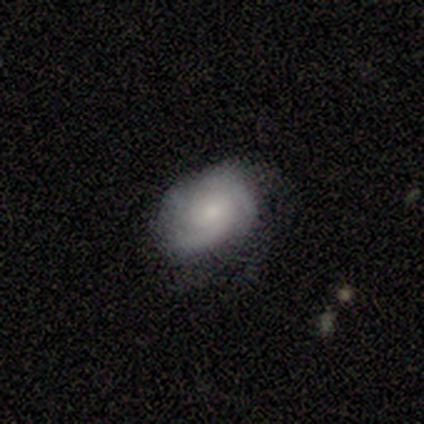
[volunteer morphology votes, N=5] Overall: featured or disk (60%; smooth 40%). Edge-on disk: no (100%). Bar: no (100%). Spiral arms: yes (100%). Spiral arm count: 4 (67%; can't tell 33%). Spiral winding: tight (67%; medium 33%). Bulge size: small (100%). Merging: none (60%; major disturbance 40%).